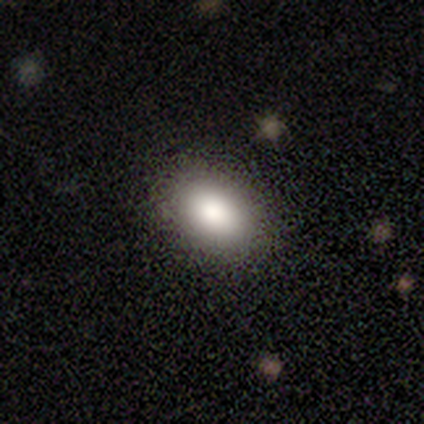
Smooth or featured? smooth (85%)
How rounded? in between (94%)
Merging? none (83%)